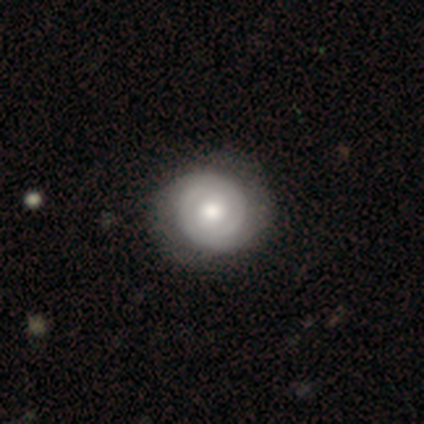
This is likely a featured or disk galaxy (72%). It is clearly not viewed edge-on (100%). Bar: likely no (79%). Spiral arm pattern: clearly yes (86%). Spiral arm count: likely 2 (79%). Spiral winding: likely tight (71%). Central bulge: likely moderate (61%). Merging: possibly none (55%).